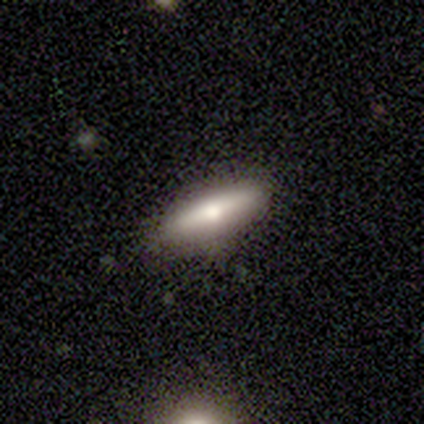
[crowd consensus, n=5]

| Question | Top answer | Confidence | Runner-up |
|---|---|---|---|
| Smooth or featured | featured or disk | 40% | tied: star or artifact (40%) |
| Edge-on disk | yes | 100% | — |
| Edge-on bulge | none | 100% | — |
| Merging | none | 67% | minor disturbance (33%) |